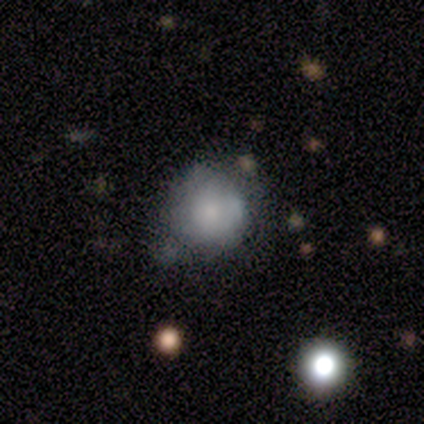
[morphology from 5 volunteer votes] Q: Smooth or featured?
A: smooth (100%)
Q: How rounded?
A: round (100%)
Q: Merging?
A: none (60%); runner-up: minor disturbance (40%)